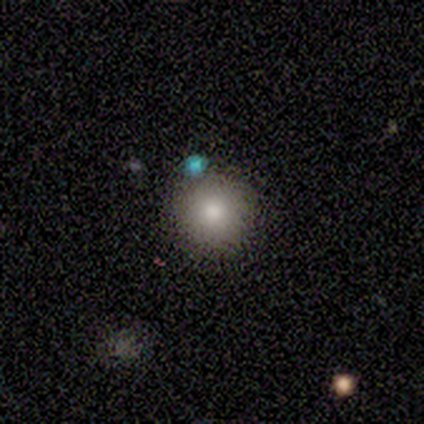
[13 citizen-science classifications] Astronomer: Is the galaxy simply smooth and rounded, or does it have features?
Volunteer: smooth — 85%.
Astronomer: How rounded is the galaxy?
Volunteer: round — 100%.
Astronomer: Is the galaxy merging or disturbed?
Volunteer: none — 100%.